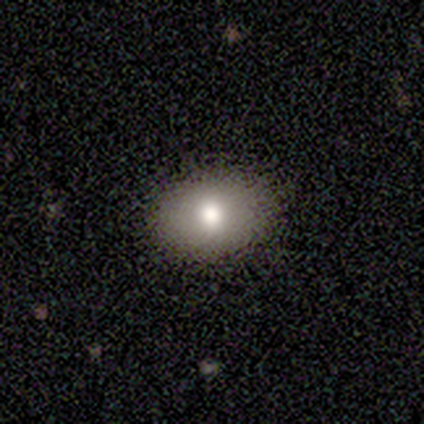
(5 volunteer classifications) A smooth galaxy with no disk features (80%) that is in between round and cigar-shaped (75%).

Vote fractions:
- Smooth or featured? smooth: 80% / featured or disk: 20% / star or artifact: 0%
- How rounded? in between: 75% / round: 25% / cigar-shaped: 0%
- Merging? none: 100% / minor disturbance: 0% / major disturbance: 0% / merger: 0%